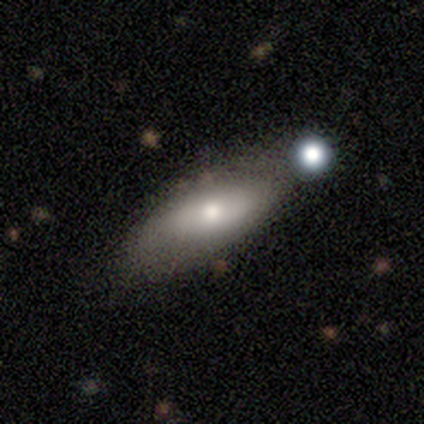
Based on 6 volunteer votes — Overall: featured or disk (67%). Edge-on disk: no (75%). Bar: no (100%). Spiral arms: no (100%). Bulge size: moderate (67%; large 33%). Merging: none (60%; minor disturbance 20%).